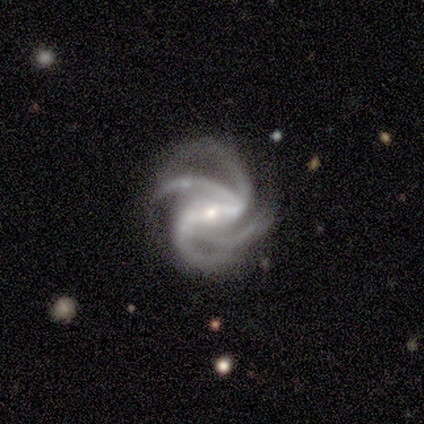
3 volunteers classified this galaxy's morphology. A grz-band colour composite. It shows a featured or disk galaxy (100%) with a strong bar (67%), 4 (100%) tight (33%, tied with medium and loose) spiral arms (100%) and a small central bulge (67%). Merging: minor disturbance (67%).